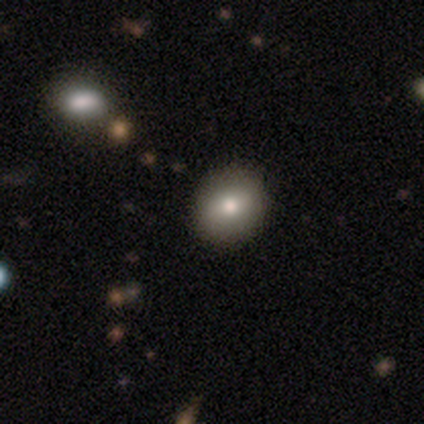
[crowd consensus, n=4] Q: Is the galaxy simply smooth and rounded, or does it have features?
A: smooth — 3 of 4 (75%).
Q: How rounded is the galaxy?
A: in between — 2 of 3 (67%).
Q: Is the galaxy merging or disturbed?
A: none — 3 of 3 (100%).